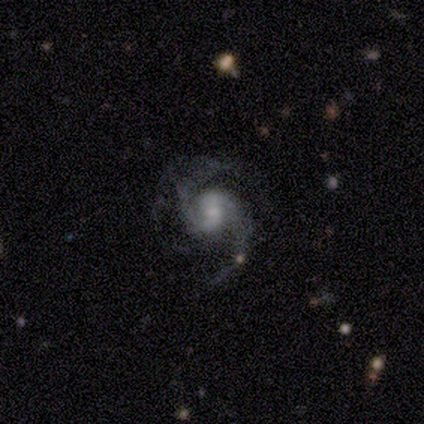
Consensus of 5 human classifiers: Volunteers were most divided on "bar" (2-way tie): strong: 40%, weak: 40%, no: 20%; "bulge size" (2-way tie): large: 40%, small: 40%, moderate: 20%, dominant: 0%, none: 0%. More confident: smooth or featured — featured or disk (100%); edge-on disk — no (100%); spiral arms — yes (100%); spiral arm count — 2 (80%); spiral winding — medium (60%); merging — none (60%).